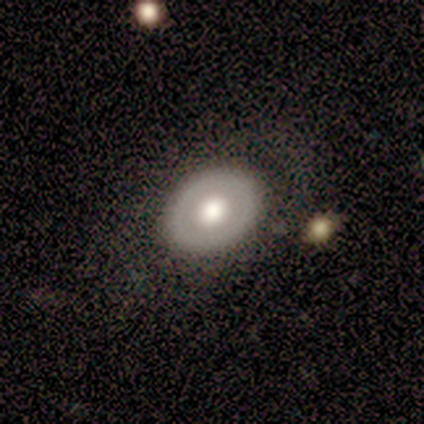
This is clearly a featured or disk galaxy (100%). It is likely not viewed edge-on (75%). Bar: likely no (67%). Spiral arm pattern: likely no (67%). Central bulge: likely large (67%). Merging: likely none (75%).